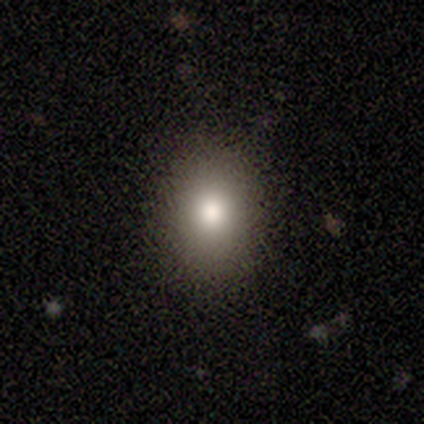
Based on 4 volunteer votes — Smooth or featured? 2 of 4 (50%, tied with star or artifact) said smooth. How rounded? 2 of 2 (100%) said in between. Merging? 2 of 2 (100%) said none.